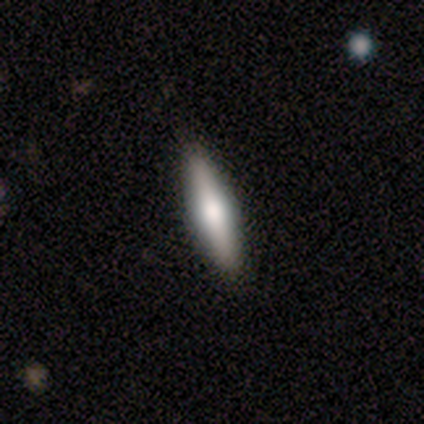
smooth-or-featured: smooth: 60% | featured or disk: 40% | star or artifact: 0%
  how-rounded: cigar-shaped: 100% | round: 0% | in between: 0%
  merging: none: 100% | minor disturbance: 0% | major disturbance: 0% | merger: 0%